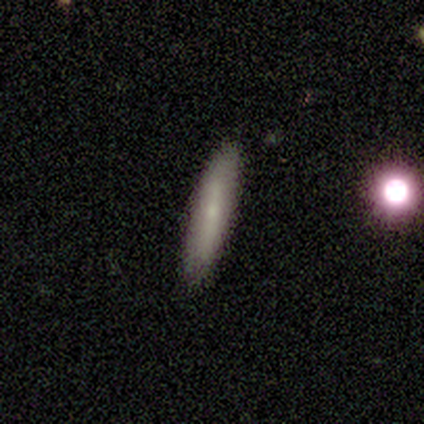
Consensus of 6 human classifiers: Morphology: type=smooth (50%); roundness=cigar-shaped (100%); merging=none (80%).